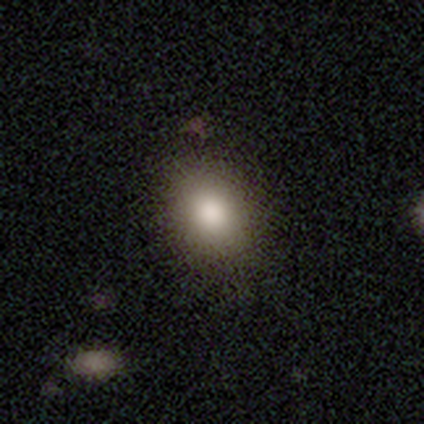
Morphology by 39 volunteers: Smooth or featured? 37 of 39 (95%) said smooth. How rounded? 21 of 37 (57%) said in between. Merging? 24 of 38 (63%) said none.